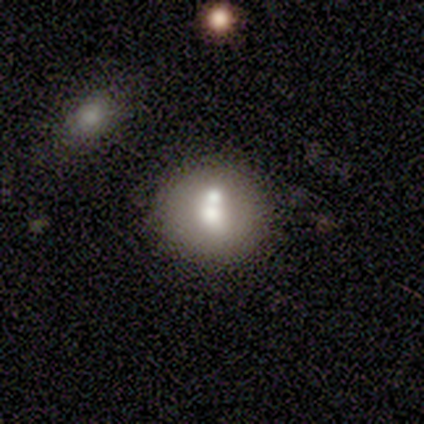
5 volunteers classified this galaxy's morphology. A smooth galaxy with no disk features (80%) that is round (100%). Merging: none (60%).